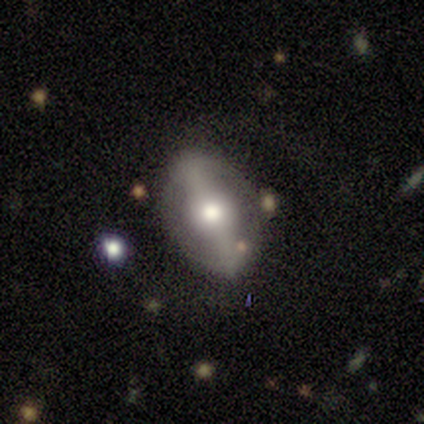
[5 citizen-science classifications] Morphology: type=smooth (60%); roundness=in between (100%); merging=none (60%).